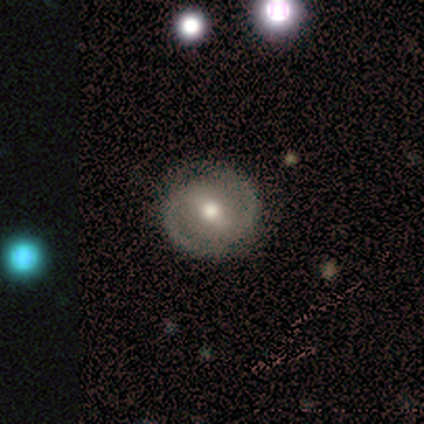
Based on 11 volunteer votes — Smooth or featured: featured or disk — 73% (smooth — 18%)
Edge-on disk: no — 100%
Bar: strong — 50% (tied with weak — 50%)
Spiral arms: yes — 100%
Spiral winding: medium — 62% (tight — 25%)
Spiral arm count: 2 — 100%
Bulge size: moderate — 100%
Merging: none — 100%